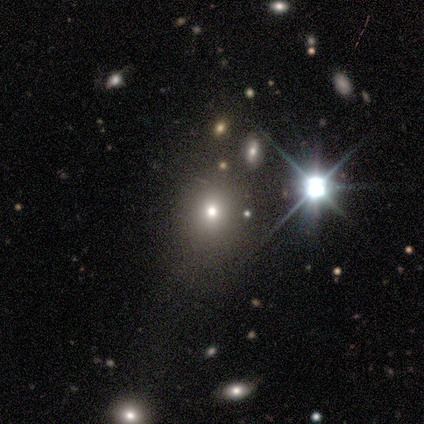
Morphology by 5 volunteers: A smooth galaxy with no disk features (40%, tied with star or artifact) that is round (100%).

Vote fractions:
- Smooth or featured? smooth: 40% (tied) / star or artifact: 40% (tied) / featured or disk: 20%
- How rounded? round: 100% / in between: 0% / cigar-shaped: 0%
- Merging? none: 100% / minor disturbance: 0% / major disturbance: 0% / merger: 0%